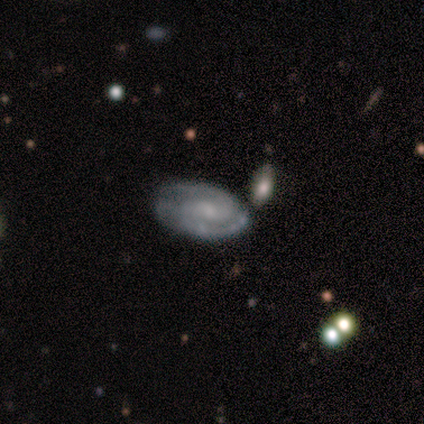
Q: Smooth or featured?
A: featured or disk (67%); runner-up: star or artifact (33%)
Q: Edge-on disk?
A: yes (50%); tied with: no (50%)
Q: Edge-on bulge?
A: rounded (100%)
Q: Merging?
A: none (50%); tied with: merger (50%)